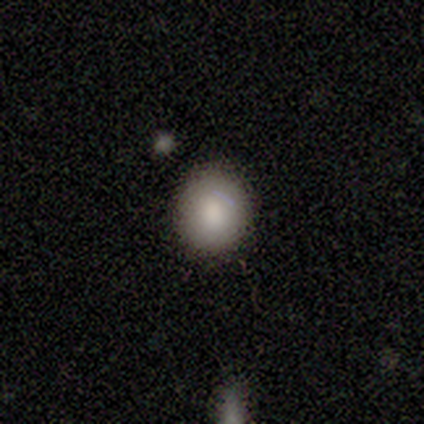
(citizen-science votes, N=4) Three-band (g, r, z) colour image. It shows a smooth galaxy with no disk features (75%) that is round (100%). Merging: none (100%).